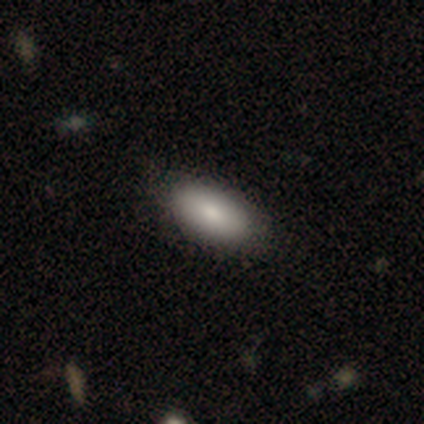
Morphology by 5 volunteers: Volunteers were most divided on "how rounded": in between: 75%, cigar-shaped: 25%, round: 0%. More confident: merging — none (100%); smooth or featured — smooth (80%).